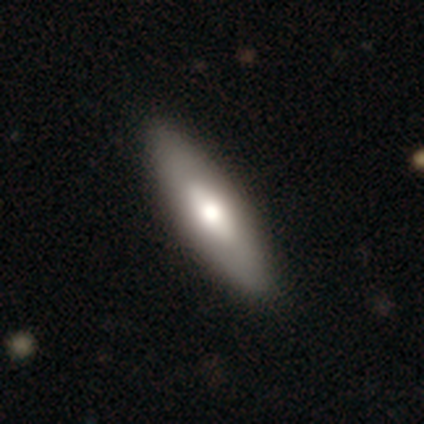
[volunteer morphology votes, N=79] A smooth galaxy with no disk features (63%) that is in between round and cigar-shaped (60%).

Vote fractions:
- Smooth or featured? smooth: 63% / featured or disk: 33% / star or artifact: 4%
- How rounded? in between: 60% / cigar-shaped: 38% / round: 2%
- Merging? none: 43% / minor disturbance: 7% / major disturbance: 0% / merger: 0%